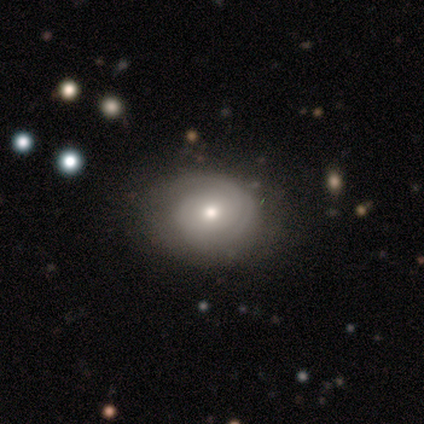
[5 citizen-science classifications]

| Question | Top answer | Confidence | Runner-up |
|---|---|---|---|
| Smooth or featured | featured or disk | 80% | smooth (20%) |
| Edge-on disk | no | 100% | — |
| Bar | no | 75% | weak (25%) |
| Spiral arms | yes | 100% | — |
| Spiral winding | tight | 100% | — |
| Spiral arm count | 3 | 75% | can't tell (25%) |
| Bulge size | moderate | 75% | small (25%) |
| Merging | none | 80% | major disturbance (20%) |